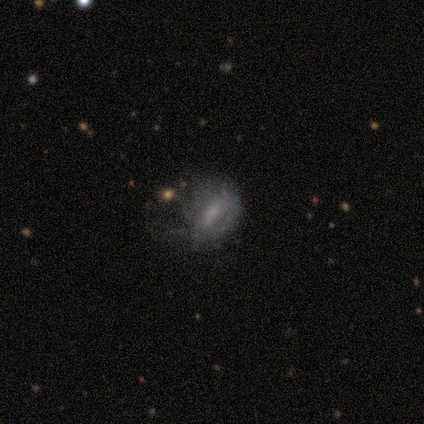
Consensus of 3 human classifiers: This appears to be a smooth galaxy with no disk features (33%, tied with featured or disk and star or artifact) that is round (100%). Merging: none (100%).